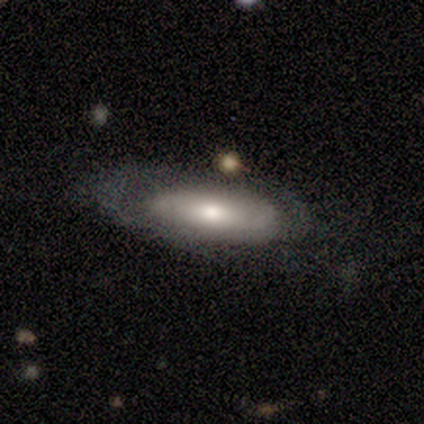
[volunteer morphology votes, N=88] A featured or disk galaxy (51%) with no bar (76%), no spiral arms (61%) and a moderate central bulge (55%).

Vote fractions:
- Smooth or featured? featured or disk: 51% / smooth: 44% / star or artifact: 5%
- Edge-on disk? no: 73% / yes: 27%
- Bar? no: 76% / weak: 18% / strong: 6%
- Spiral arms? no: 61% / yes: 39%
- Bulge size? moderate: 55% / small: 30% / large: 12% / dominant: 3% / none: 0%
- Merging? none: 60% / minor disturbance: 21% / major disturbance: 14% / merger: 5%